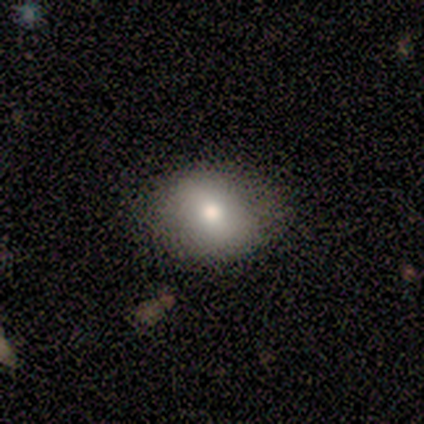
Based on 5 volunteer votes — featured or disk 60%, smooth 40%, star or artifact 0%. Down the decision tree: edge-on disk — no (67%); bar — no (100%); spiral arms — no (100%); bulge size — large (50%, tied with small); merging — none (80%).